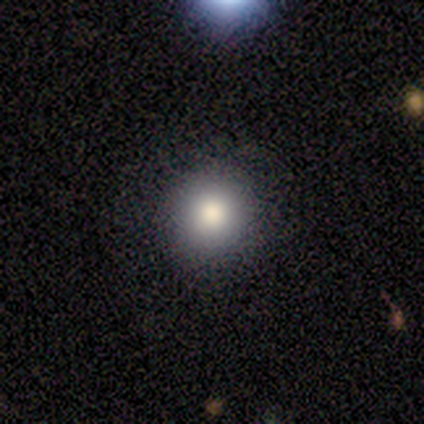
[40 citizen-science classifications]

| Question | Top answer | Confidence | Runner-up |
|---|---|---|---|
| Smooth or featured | smooth | 88% | featured or disk (8%) |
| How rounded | round | 100% | — |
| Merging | none | 84% | minor disturbance (13%) |